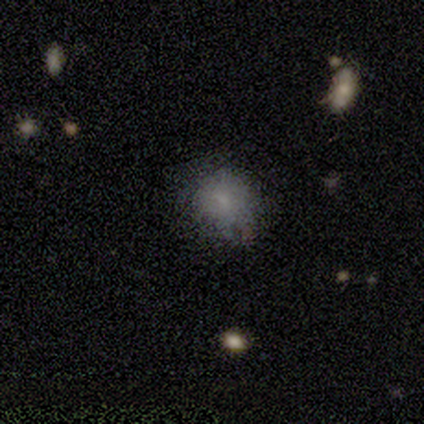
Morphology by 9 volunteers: Volunteers were most divided on "merging": none: 67%, minor disturbance: 33%, major disturbance: 0%, merger: 0%. More confident: smooth or featured — smooth (78%); how rounded — in between (71%).